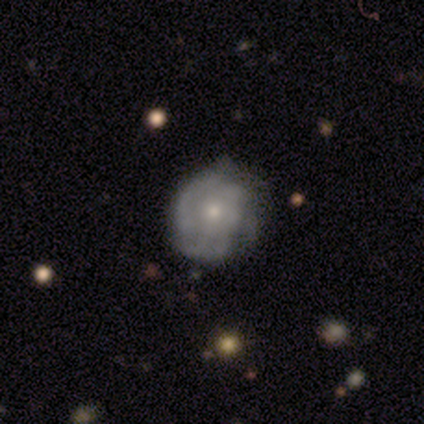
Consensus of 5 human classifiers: This is likely a smooth galaxy (60%). How rounded: likely round (67%). Merging: clearly none (100%).